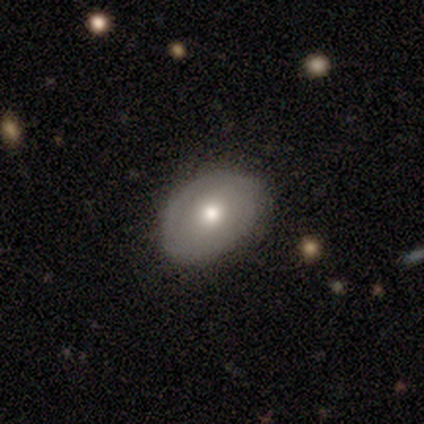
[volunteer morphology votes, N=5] Smooth or featured?
  - featured or disk: 60% *
  - smooth: 40%
  - star or artifact: 0%
Edge-on disk?
  - no: 100% *
  - yes: 0%
Bar?
  - no: 100% *
  - strong: 0%
  - weak: 0%
Spiral arms?
  - yes: 67% *
  - no: 33%
Spiral winding?
  - tight: 50% * (tied)
  - medium: 50% * (tied)
  - loose: 0%
Spiral arm count?
  - 1: 50% * (tied)
  - 2: 50% * (tied)
  - 3: 0%
  - 4: 0%
  - more than 4: 0%
  - can't tell: 0%
Bulge size?
  - moderate: 100% *
  - dominant: 0%
  - large: 0%
  - small: 0%
  - none: 0%
Merging?
  - none: 80% *
  - major disturbance: 20%
  - minor disturbance: 0%
  - merger: 0%